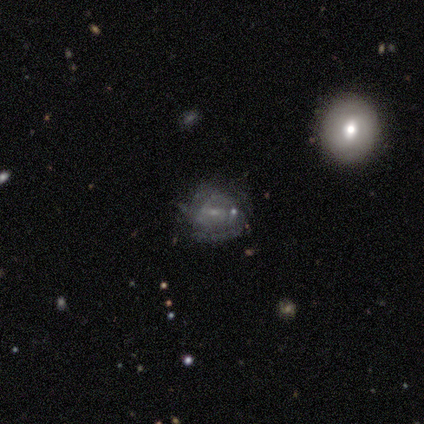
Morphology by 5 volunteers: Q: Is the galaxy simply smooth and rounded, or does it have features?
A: featured or disk — 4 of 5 (80%).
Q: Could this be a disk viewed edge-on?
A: no — 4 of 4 (100%).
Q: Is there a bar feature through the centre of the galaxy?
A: no — 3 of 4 (75%).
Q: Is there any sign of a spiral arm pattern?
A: yes — 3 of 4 (75%).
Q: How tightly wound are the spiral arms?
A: tight — 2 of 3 (67%).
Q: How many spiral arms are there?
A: can't tell — 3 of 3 (100%).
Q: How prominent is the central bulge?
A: small — 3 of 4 (75%).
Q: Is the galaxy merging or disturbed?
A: none — 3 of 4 (75%).